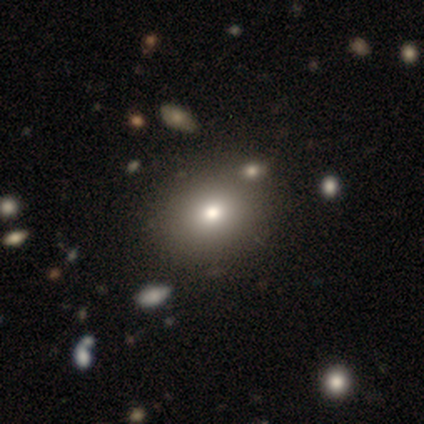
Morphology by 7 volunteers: A smooth galaxy with no disk features (100%) that is in between round and cigar-shaped (71%).

Vote fractions:
- Smooth or featured? smooth: 100% / featured or disk: 0% / star or artifact: 0%
- How rounded? in between: 71% / round: 29% / cigar-shaped: 0%
- Merging? none: 100% / minor disturbance: 0% / major disturbance: 0% / merger: 0%